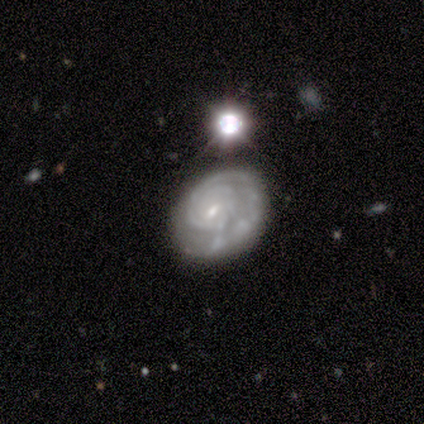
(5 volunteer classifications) Morphology: type=featured or disk (80%); edge-on=no (100%); bar=weak (75%); spiral arms=yes (100%); winding=tight (100%); arm count=can't tell (50%); bulge=small (100%); merging=none (75%).